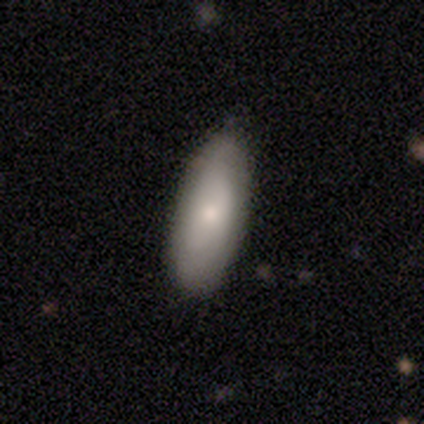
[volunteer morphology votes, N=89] Smooth or featured?
  - smooth: 72% *
  - featured or disk: 22%
  - star or artifact: 6%
How rounded?
  - in between: 78% *
  - cigar-shaped: 20%
  - round: 2%
Merging?
  - none: 76% *
  - minor disturbance: 20%
  - major disturbance: 2%
  - merger: 1%